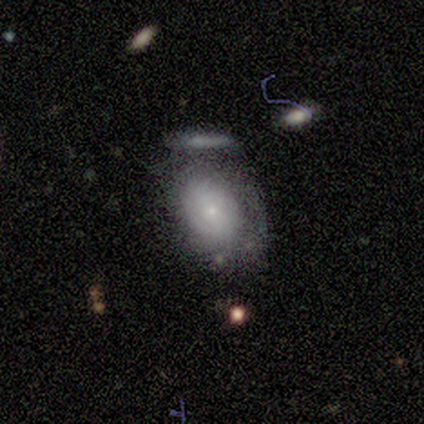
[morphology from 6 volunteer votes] Overall: smooth (50%, tied with featured or disk). How rounded: in between (100%). Merging: none (33%, tied with major disturbance).